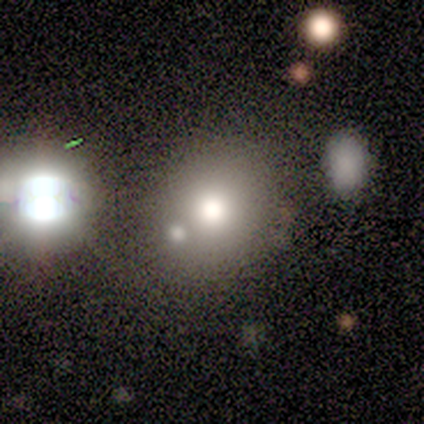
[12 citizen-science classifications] This appears to be a smooth galaxy with no disk features (67%) that is round (88%). Merging: none (73%).